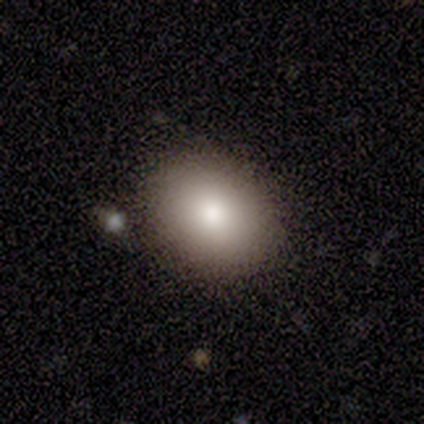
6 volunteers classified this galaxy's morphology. This is clearly a smooth galaxy (100%). How rounded: likely round (67%). Merging: clearly none (100%).